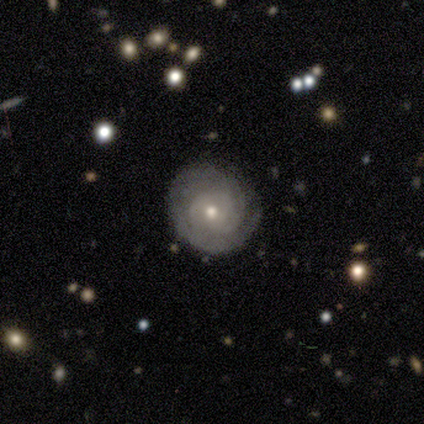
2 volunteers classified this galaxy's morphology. Overall: featured or disk (100%). Edge-on disk: no (100%). Bar: no (100%). Spiral arms: yes (100%). Spiral arm count: 2 (50%, tied with can't tell). Spiral winding: tight (50%, tied with medium). Bulge size: small (100%). Merging: none (100%).